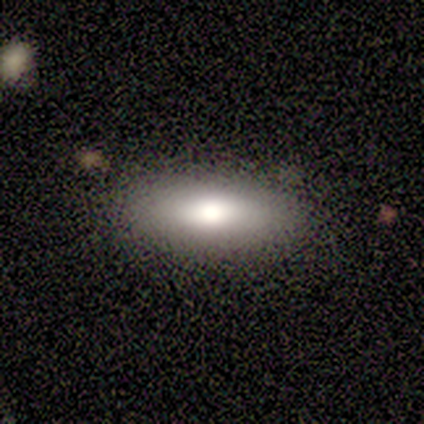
smooth-or-featured: smooth: 100% | featured or disk: 0% | star or artifact: 0%
  how-rounded: in between: 80% | cigar-shaped: 20% | round: 0%
  merging: none: 80% | minor disturbance: 20% | major disturbance: 0% | merger: 0%